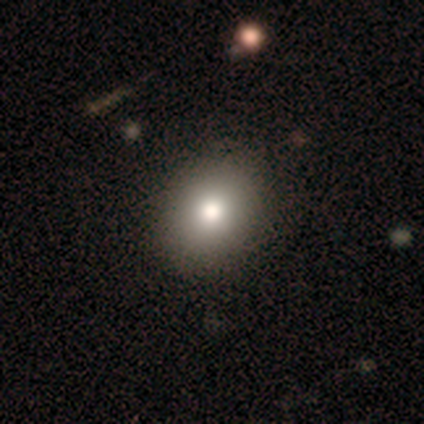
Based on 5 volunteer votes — smooth 80%, featured or disk 20%, star or artifact 0%. Down the decision tree: how rounded — round (100%); merging — none (80%).